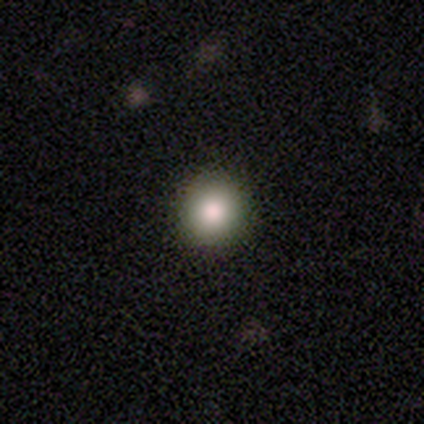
Q: Smooth or featured?
A: smooth (60%); runner-up: featured or disk (20%)
Q: How rounded?
A: round (100%)
Q: Merging?
A: none (100%)